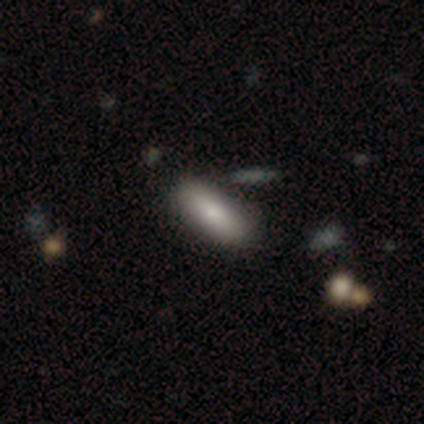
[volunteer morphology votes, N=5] smooth 80%, featured or disk 20%, star or artifact 0%. Down the decision tree: how rounded — in between (75%); merging — none (80%).